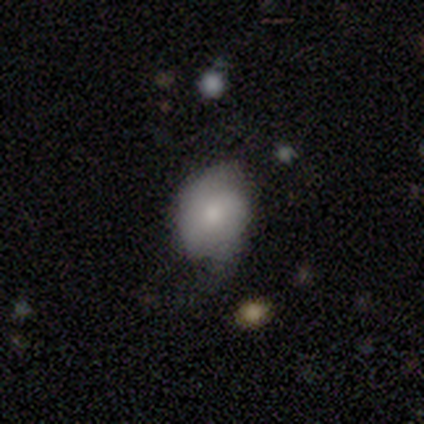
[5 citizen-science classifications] Q: Smooth or featured?
A: smooth (80%); runner-up: featured or disk (20%)
Q: How rounded?
A: in between (75%); runner-up: round (25%)
Q: Merging?
A: none (80%); runner-up: minor disturbance (20%)